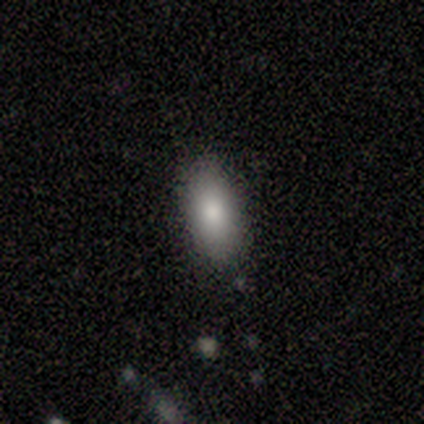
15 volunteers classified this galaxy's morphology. Smooth or featured? smooth (73%)
How rounded? in between (100%)
Merging? none (79%)